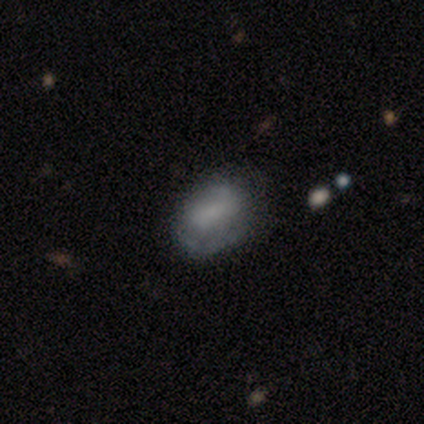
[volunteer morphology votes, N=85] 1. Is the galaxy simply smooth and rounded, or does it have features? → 62% smooth, 28% featured or disk, 9% star or artifact.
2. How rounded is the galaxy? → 83% in between, 15% round, 2% cigar-shaped.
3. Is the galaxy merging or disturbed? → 60% none, 25% minor disturbance, 16% major disturbance, 0% merger.